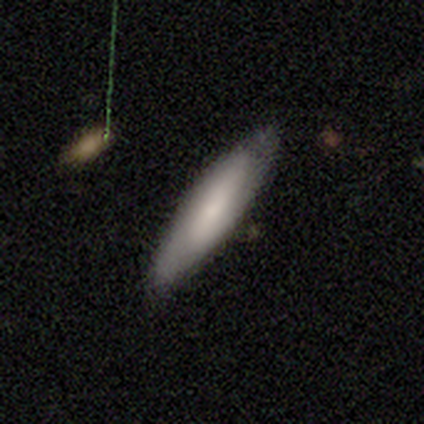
Smooth or featured? smooth (45%, tied with featured or disk)
How rounded? cigar-shaped (61%)
Merging? none (81%)